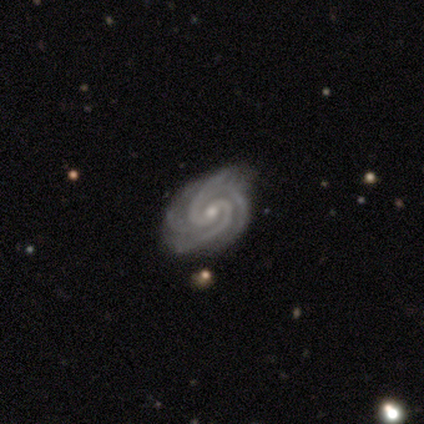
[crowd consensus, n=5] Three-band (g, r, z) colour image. It shows a featured or disk galaxy (80%) with no bar (75%), 3 (50%) tight (75%) spiral arms (100%) and a small central bulge (75%). Merging: none (50%, tied with minor disturbance).